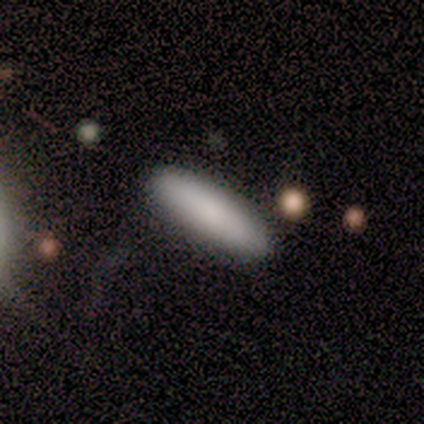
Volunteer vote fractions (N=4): This is clearly a smooth galaxy (100%). How rounded: possibly in between (50%, tied with cigar-shaped). Merging: likely none (75%).